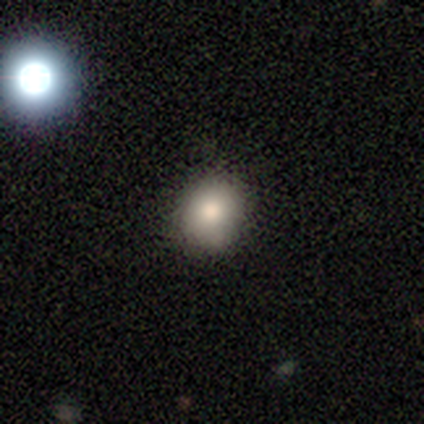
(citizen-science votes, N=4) Smooth or featured?
  - smooth: 100% *
  - featured or disk: 0%
  - star or artifact: 0%
How rounded?
  - round: 75% *
  - in between: 25%
  - cigar-shaped: 0%
Merging?
  - none: 75% *
  - minor disturbance: 25%
  - major disturbance: 0%
  - merger: 0%